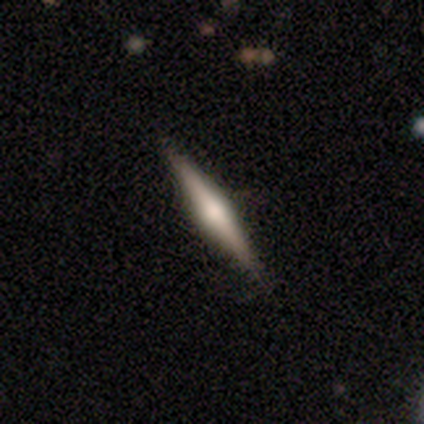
Smooth or featured?
  - smooth: 50% * (tied)
  - featured or disk: 50% * (tied)
  - star or artifact: 0%
How rounded?
  - cigar-shaped: 100% *
  - round: 0%
  - in between: 0%
Merging?
  - none: 100% *
  - minor disturbance: 0%
  - major disturbance: 0%
  - merger: 0%